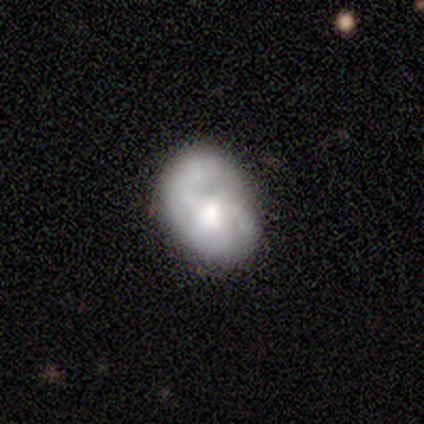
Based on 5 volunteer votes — smooth-or-featured: smooth: 60% | featured or disk: 40% | star or artifact: 0%
  how-rounded: in between: 67% | round: 33% | cigar-shaped: 0%
  merging: minor disturbance: 60% | none: 20% | major disturbance: 20% | merger: 0%